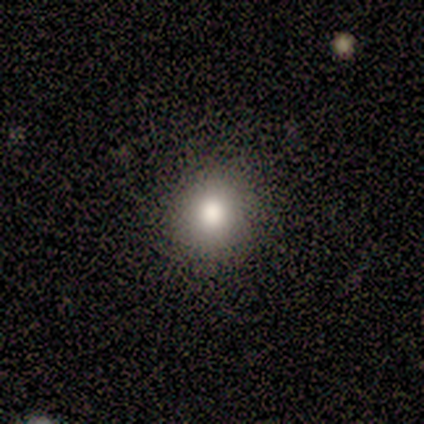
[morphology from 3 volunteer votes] Smooth or featured? smooth (100%)
How rounded? round (67%)
Merging? none (100%)